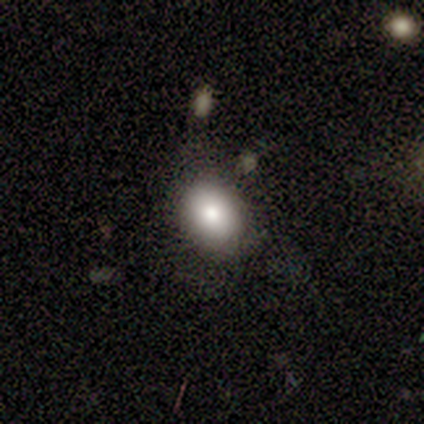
Smooth or featured?
  - smooth: 100% *
  - featured or disk: 0%
  - star or artifact: 0%
How rounded?
  - in between: 67% *
  - round: 33%
  - cigar-shaped: 0%
Merging?
  - none: 67% *
  - minor disturbance: 33%
  - major disturbance: 0%
  - merger: 0%